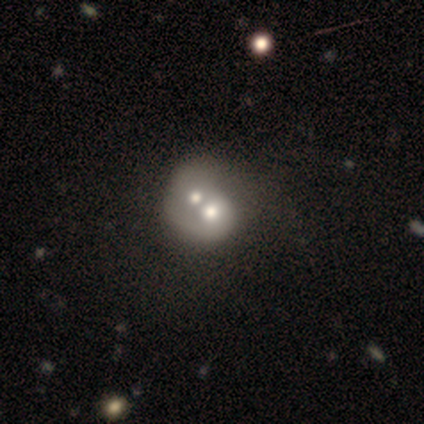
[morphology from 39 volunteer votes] Smooth or featured? 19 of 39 (49%) said smooth. How rounded? 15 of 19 (79%) said round. Merging? 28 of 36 (78%) said merger.